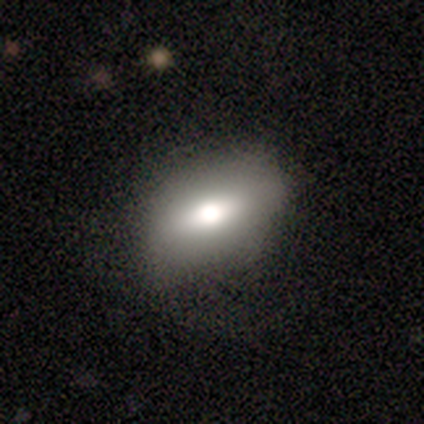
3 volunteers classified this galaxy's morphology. Smooth or featured? featured or disk (67%)
Edge-on disk? no (100%)
Bar? strong (50%, tied with no)
Spiral arms? no (100%)
Bulge size? dominant (50%, tied with large)
Merging? major disturbance (67%)